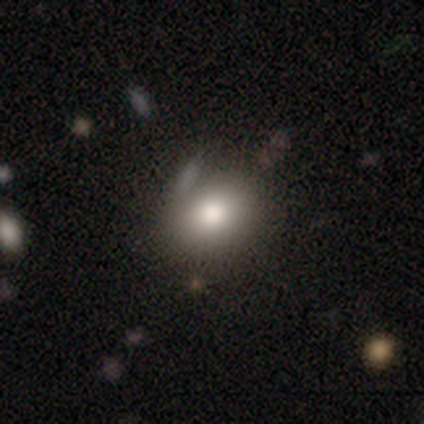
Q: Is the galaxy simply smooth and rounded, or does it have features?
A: smooth — 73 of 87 (84%).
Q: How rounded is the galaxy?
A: in between — 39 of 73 (53%).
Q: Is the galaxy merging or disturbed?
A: none — 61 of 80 (76%).